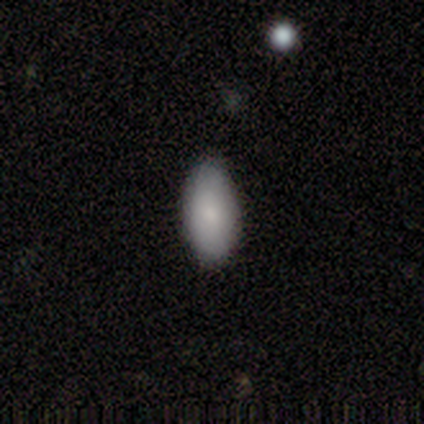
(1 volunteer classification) Overall: smooth (100%). How rounded: in between (100%). Merging: none (100%).